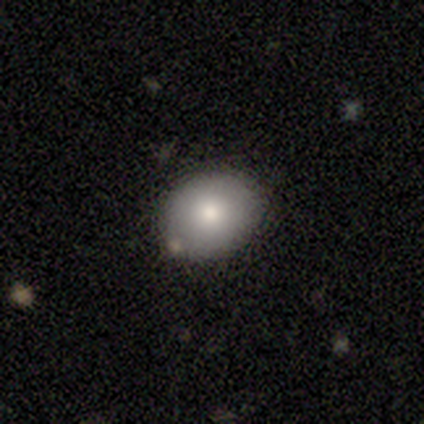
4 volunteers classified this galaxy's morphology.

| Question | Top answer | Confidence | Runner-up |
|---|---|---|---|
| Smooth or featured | smooth | 100% | — |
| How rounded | round | 75% | in between (25%) |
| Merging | none | 75% | major disturbance (25%) |